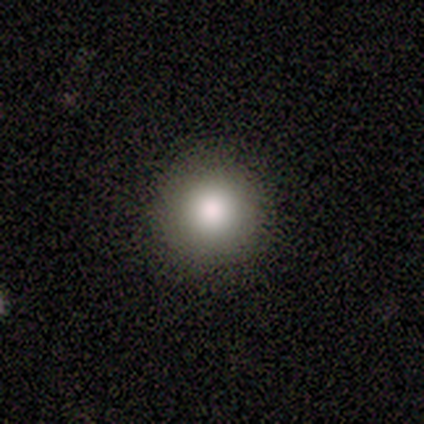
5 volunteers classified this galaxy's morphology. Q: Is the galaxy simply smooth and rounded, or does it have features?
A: smooth — 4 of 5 (80%).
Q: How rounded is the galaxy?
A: round — 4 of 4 (100%).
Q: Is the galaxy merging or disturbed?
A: none — 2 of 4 (50%).